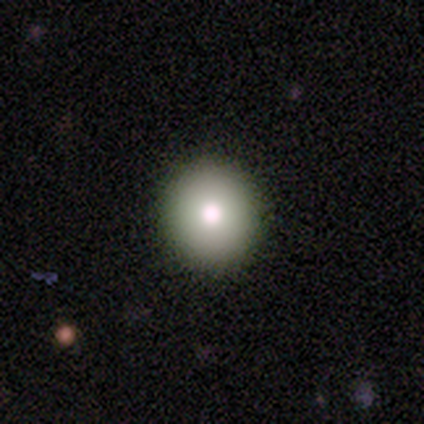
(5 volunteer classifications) This is likely a smooth galaxy (60%). How rounded: clearly round (100%). Merging: clearly none (100%).